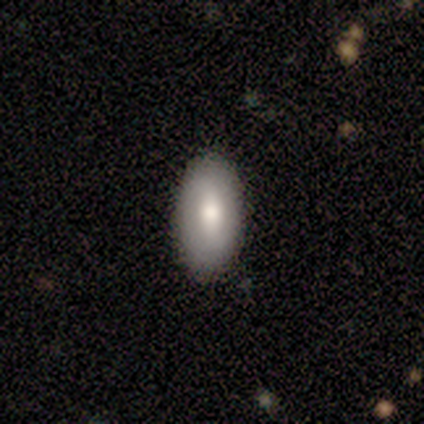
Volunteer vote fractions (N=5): Smooth or featured? smooth (100%)
How rounded? in between (100%)
Merging? none (80%)